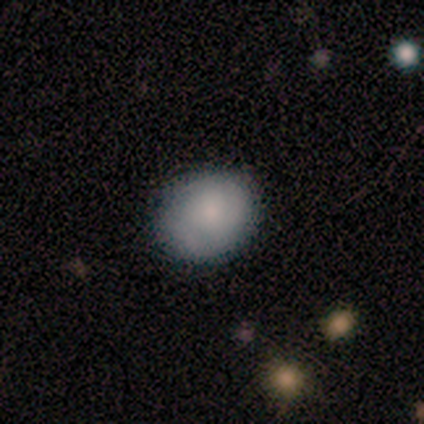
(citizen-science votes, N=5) Overall: smooth (60%; featured or disk 40%). How rounded: in between (67%; round 33%). Merging: none (80%).